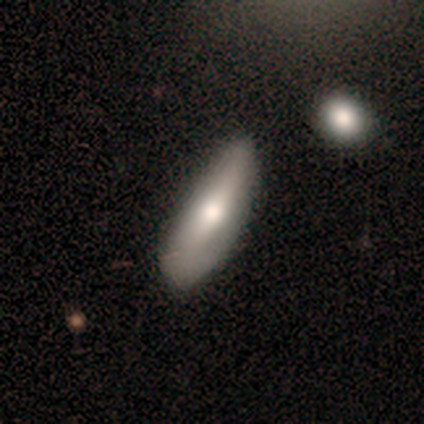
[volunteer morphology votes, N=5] smooth-or-featured: smooth: 60% | featured or disk: 40% | star or artifact: 0%
  how-rounded: in between: 67% | cigar-shaped: 33% | round: 0%
  merging: none: 60% | major disturbance: 20% | merger: 20% | minor disturbance: 0%